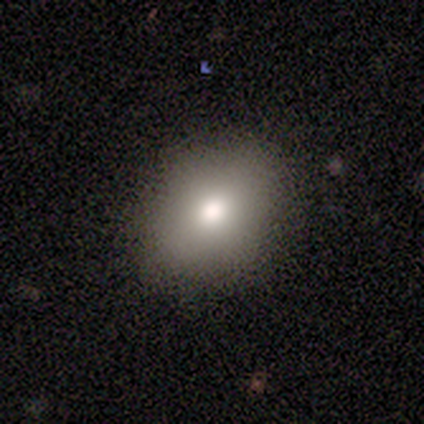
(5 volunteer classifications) This is clearly a smooth galaxy (80%). How rounded: likely in between (75%). Merging: clearly none (100%).